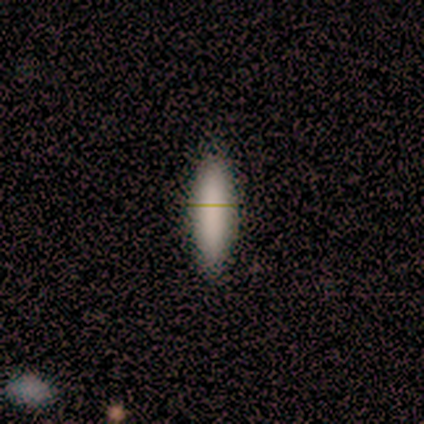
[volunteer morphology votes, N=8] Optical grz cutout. It shows a smooth galaxy with no disk features (88%) that is in between round and cigar-shaped (57%). Merging: none (100%).